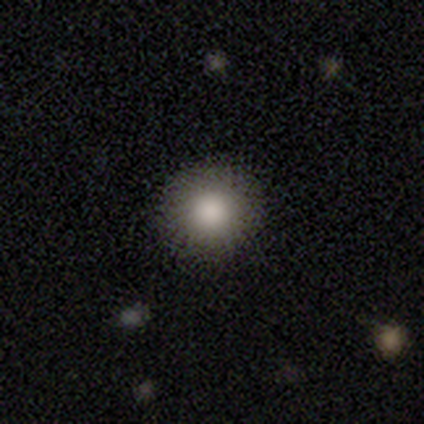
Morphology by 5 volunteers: Q: Smooth or featured?
A: smooth (100%)
Q: How rounded?
A: round (80%); runner-up: in between (20%)
Q: Merging?
A: none (100%)